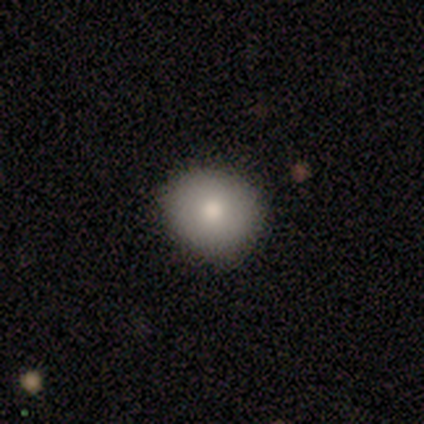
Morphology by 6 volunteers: Smooth or featured? smooth (83%)
How rounded? round (80%)
Merging? none (100%)